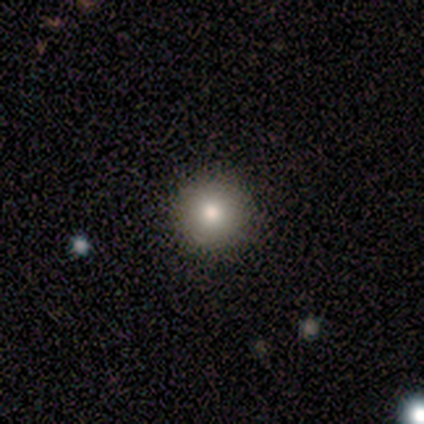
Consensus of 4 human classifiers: smooth-or-featured: smooth: 50% | featured or disk: 25% | star or artifact: 25%
  how-rounded: round: 100% | in between: 0% | cigar-shaped: 0%
  merging: none: 100% | minor disturbance: 0% | major disturbance: 0% | merger: 0%